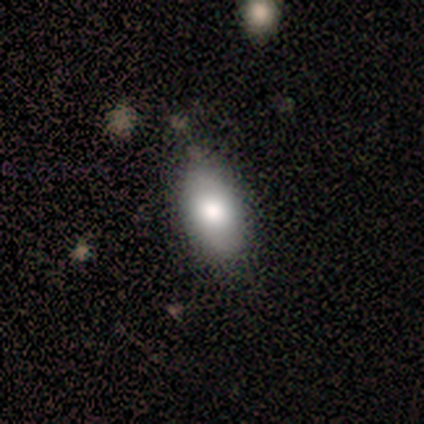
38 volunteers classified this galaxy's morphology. Volunteers were most divided on "merging": none: 49%, minor disturbance: 14%, major disturbance: 0%, merger: 0%. More confident: how rounded — in between (97%); smooth or featured — smooth (76%).